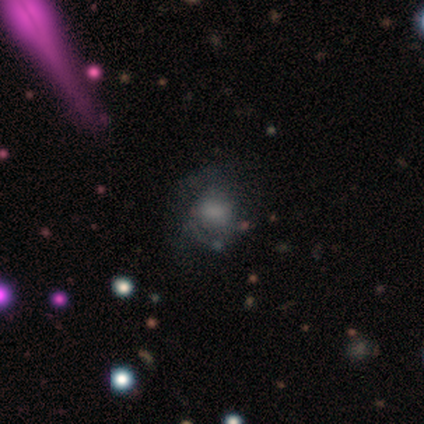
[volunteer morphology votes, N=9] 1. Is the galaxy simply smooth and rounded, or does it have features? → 56% smooth, 33% featured or disk, 11% star or artifact.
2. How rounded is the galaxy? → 60% in between, 40% round, 0% cigar-shaped.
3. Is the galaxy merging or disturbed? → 50% none, 38% minor disturbance, 12% major disturbance, 0% merger.